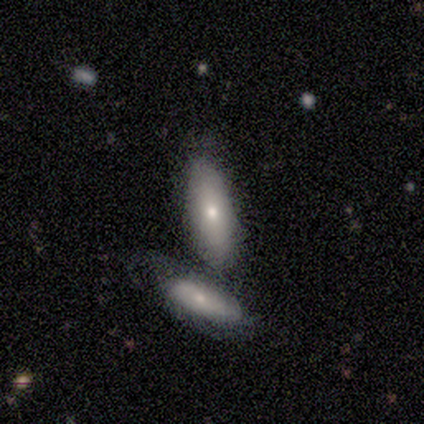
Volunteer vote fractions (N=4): Smooth or featured? 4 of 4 (100%) said smooth. How rounded? 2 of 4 (50%, tied with cigar-shaped) said in between. Merging? 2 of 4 (50%) said none.